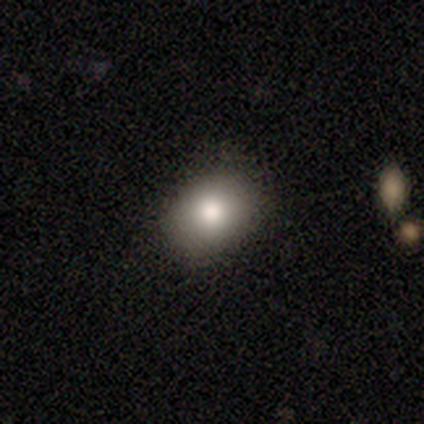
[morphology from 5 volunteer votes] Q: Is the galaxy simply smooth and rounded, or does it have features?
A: smooth — 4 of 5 (80%).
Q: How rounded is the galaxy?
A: in between — 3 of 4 (75%).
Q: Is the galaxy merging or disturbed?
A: none — 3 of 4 (75%).